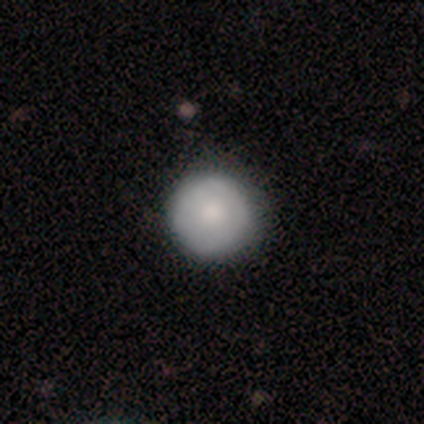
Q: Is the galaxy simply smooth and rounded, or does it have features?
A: smooth — 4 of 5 (80%).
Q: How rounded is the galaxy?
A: round — 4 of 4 (100%).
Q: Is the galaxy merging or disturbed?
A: none — 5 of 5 (100%).